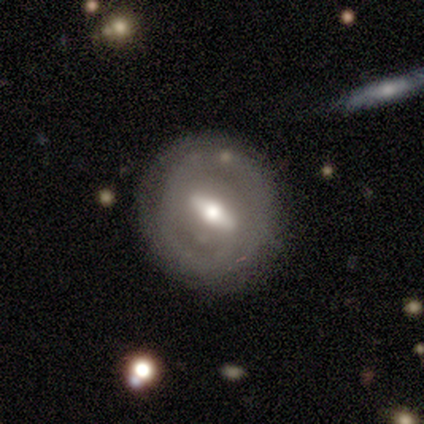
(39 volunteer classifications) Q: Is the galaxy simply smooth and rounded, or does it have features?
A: featured or disk — 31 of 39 (79%).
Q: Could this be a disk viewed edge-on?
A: no — 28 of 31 (90%).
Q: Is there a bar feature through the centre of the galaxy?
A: strong — 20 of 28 (71%).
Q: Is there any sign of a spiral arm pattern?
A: yes — 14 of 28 (50%, tied with no).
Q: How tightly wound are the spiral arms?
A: tight — 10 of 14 (71%).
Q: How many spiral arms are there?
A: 2 — 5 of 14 (36%, tied with can't tell).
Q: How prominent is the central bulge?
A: moderate — 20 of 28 (71%).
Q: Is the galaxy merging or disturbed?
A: none — 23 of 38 (61%).